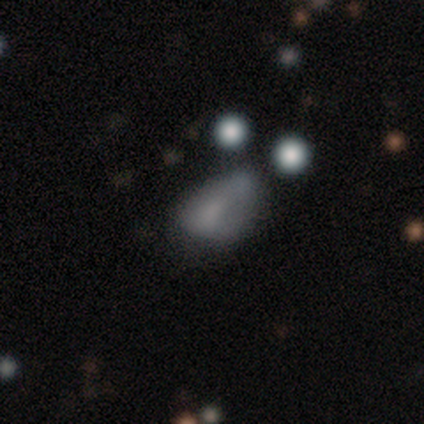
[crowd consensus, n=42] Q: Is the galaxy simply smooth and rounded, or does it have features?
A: smooth — 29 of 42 (69%).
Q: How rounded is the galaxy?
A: in between — 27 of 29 (93%).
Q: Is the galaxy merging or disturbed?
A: minor disturbance — 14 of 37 (38%).